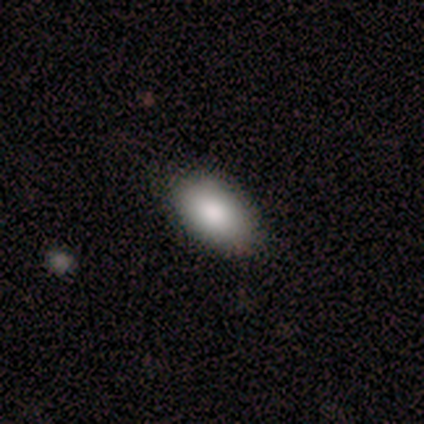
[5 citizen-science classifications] Volunteers were most divided on "merging": none: 60%, minor disturbance: 20%, major disturbance: 20%, merger: 0%. More confident: smooth or featured — smooth (100%); how rounded — in between (80%).